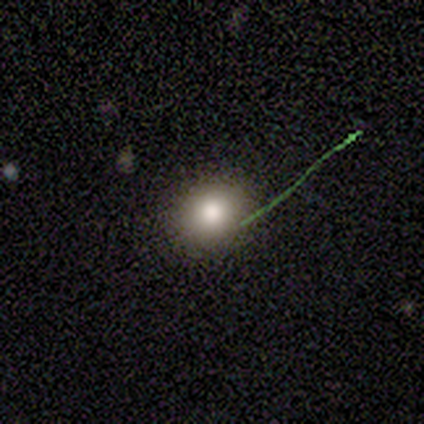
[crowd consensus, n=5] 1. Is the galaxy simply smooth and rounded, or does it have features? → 40% smooth (tied), 40% featured or disk (tied), 20% star or artifact.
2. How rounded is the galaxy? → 100% round, 0% in between, 0% cigar-shaped.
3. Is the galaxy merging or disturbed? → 100% none, 0% minor disturbance, 0% major disturbance, 0% merger.